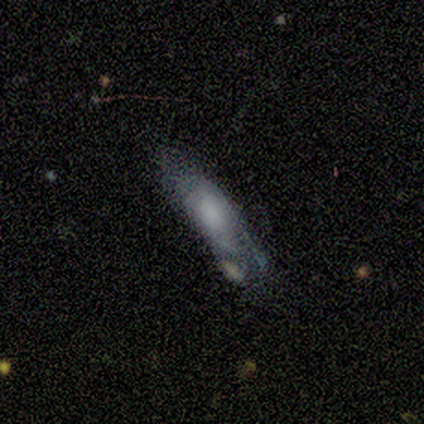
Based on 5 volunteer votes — This appears to be a featured or disk galaxy (80%) with no bar (100%), no spiral arms (75%) and a large central bulge (50%, tied with none). Merging: minor disturbance (40%, tied with major disturbance).